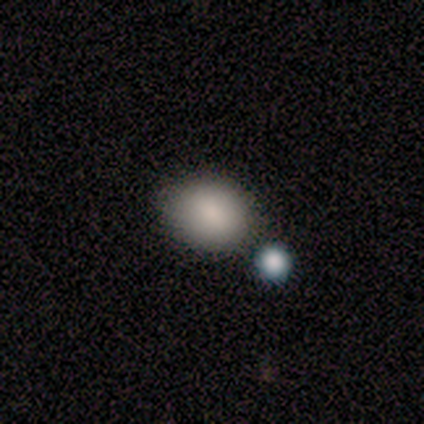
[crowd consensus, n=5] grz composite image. It shows a smooth galaxy with no disk features (100%) that is in between round and cigar-shaped (60%). Merging: none (80%).